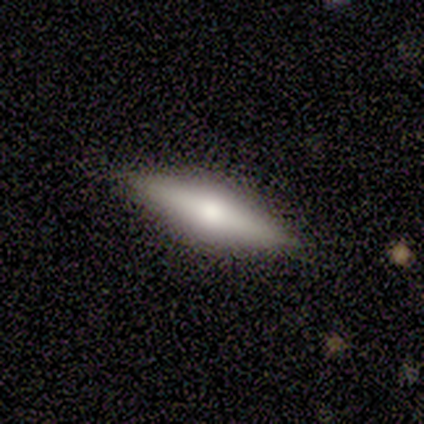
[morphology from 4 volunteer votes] Smooth or featured?
  - smooth: 50% * (tied)
  - featured or disk: 50% * (tied)
  - star or artifact: 0%
How rounded?
  - in between: 50% * (tied)
  - cigar-shaped: 50% * (tied)
  - round: 0%
Merging?
  - none: 100% *
  - minor disturbance: 0%
  - major disturbance: 0%
  - merger: 0%